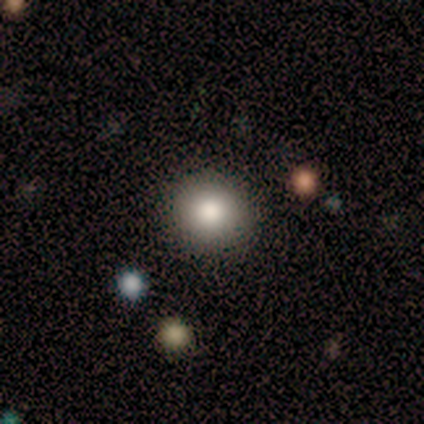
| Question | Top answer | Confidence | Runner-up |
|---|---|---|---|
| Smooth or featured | star or artifact | 60% | smooth (20%) |